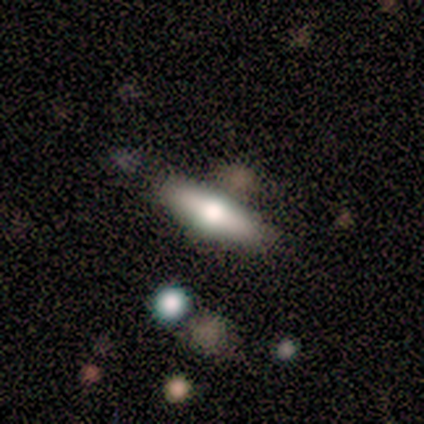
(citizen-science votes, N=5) A smooth galaxy with no disk features (80%) that is cigar-shaped (75%). Merging: none (50%, tied with minor disturbance).